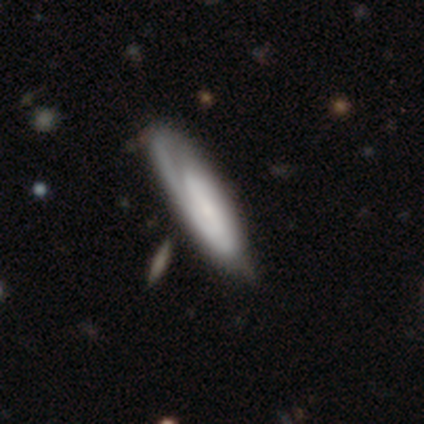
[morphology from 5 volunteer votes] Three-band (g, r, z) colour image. It shows a featured or disk galaxy (60%) with a weak bar (50%, tied with no), medium (50%, tied with loose) spiral arms (100%) and a small central bulge (100%). Merging: none (60%).